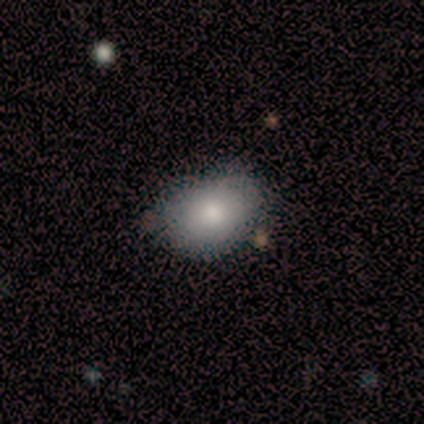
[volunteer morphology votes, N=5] Smooth or featured? smooth (80%)
How rounded? in between (75%)
Merging? minor disturbance (60%)